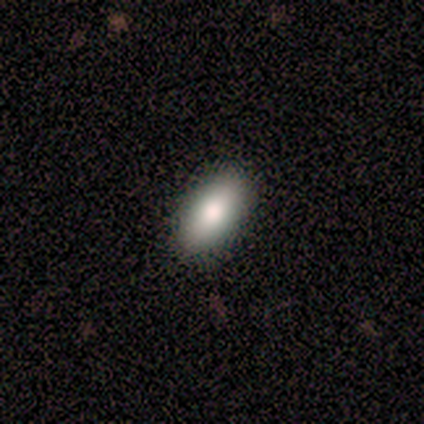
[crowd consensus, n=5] smooth-or-featured: smooth: 60% | featured or disk: 20% | star or artifact: 20%
  how-rounded: in between: 100% | round: 0% | cigar-shaped: 0%
  merging: none: 100% | minor disturbance: 0% | major disturbance: 0% | merger: 0%